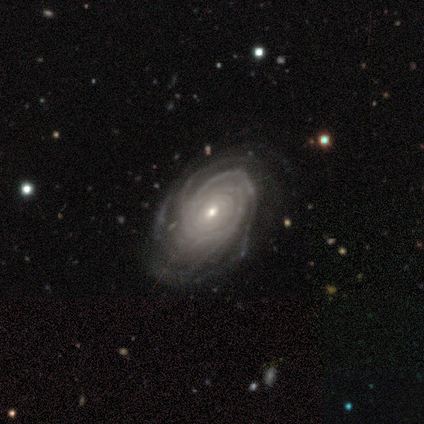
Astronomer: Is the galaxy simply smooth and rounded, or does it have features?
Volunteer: featured or disk — 75%.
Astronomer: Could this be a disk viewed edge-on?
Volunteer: no — 100%.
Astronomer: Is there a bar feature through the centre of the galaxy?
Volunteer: no — 67%.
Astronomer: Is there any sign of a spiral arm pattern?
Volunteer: yes — 100%.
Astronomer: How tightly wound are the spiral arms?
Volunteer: tight — 100%.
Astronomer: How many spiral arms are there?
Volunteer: can't tell — 67%.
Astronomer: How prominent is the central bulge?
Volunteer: small — 67%.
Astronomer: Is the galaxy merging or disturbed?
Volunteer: none — 100%.